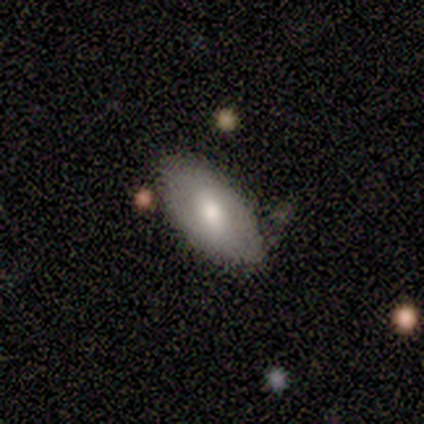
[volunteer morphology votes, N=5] Smooth or featured? 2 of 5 (40%, tied with featured or disk) said smooth. How rounded? 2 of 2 (100%) said in between. Merging? 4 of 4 (100%) said none.